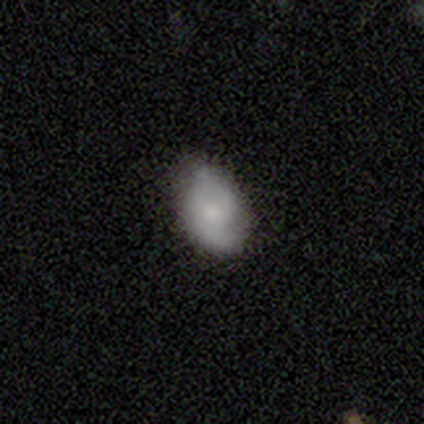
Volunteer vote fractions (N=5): smooth-or-featured: smooth: 60% | featured or disk: 40% | star or artifact: 0%
  how-rounded: in between: 100% | round: 0% | cigar-shaped: 0%
  merging: none: 80% | minor disturbance: 20% | major disturbance: 0% | merger: 0%